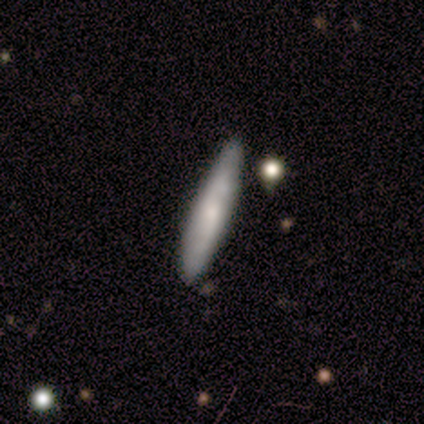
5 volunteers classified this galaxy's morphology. type=smooth (100%); roundness=cigar-shaped (100%); merging=none (80%).